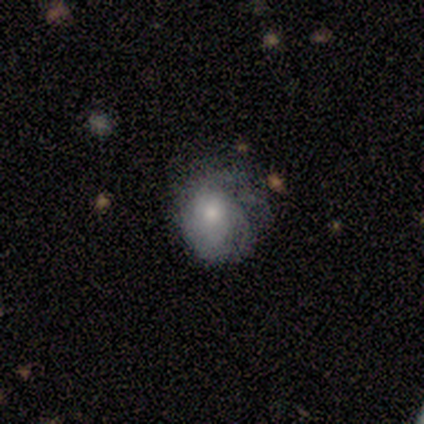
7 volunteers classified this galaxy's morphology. Smooth or featured? featured or disk (71%)
Edge-on disk? no (100%)
Bar? no (100%)
Spiral arms? yes (80%)
Spiral winding? tight (100%)
Spiral arm count? can't tell (75%)
Bulge size? moderate (80%)
Merging? minor disturbance (71%)